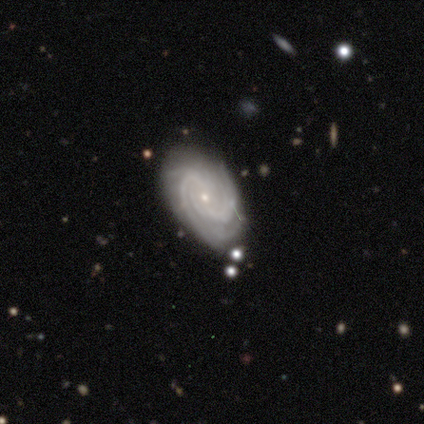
Morphology: type=featured or disk (80%); edge-on=no (100%); bar=strong (50%, tied with no); spiral arms=yes (100%); winding=tight (100%); arm count=can't tell (50%); bulge=small (100%); merging=none (80%).